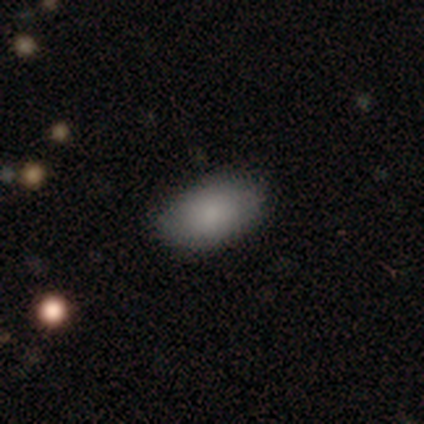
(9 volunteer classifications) smooth 78%, featured or disk 11%, star or artifact 11%. Down the decision tree: how rounded — in between (100%); merging — none (100%).